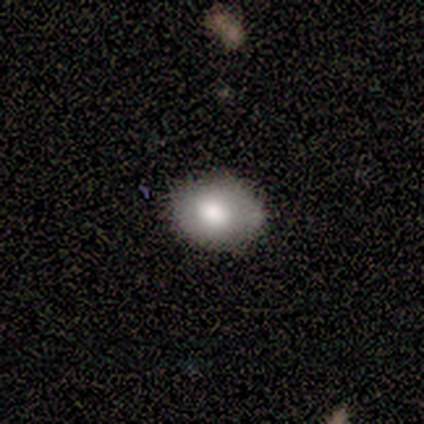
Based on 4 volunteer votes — A smooth galaxy with no disk features (100%) that is round (75%).

Vote fractions:
- Smooth or featured? smooth: 100% / featured or disk: 0% / star or artifact: 0%
- How rounded? round: 75% / in between: 25% / cigar-shaped: 0%
- Merging? none: 75% / minor disturbance: 25% / major disturbance: 0% / merger: 0%